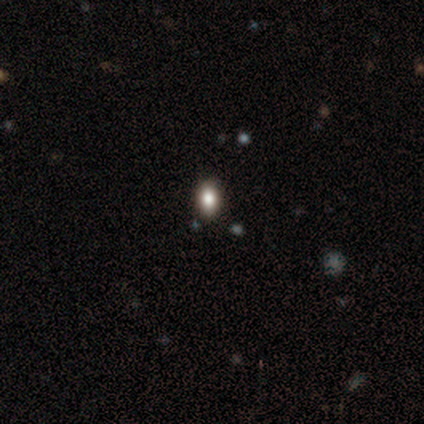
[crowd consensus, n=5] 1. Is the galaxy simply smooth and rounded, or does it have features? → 60% smooth, 40% star or artifact, 0% featured or disk.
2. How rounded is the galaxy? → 100% in between, 0% round, 0% cigar-shaped.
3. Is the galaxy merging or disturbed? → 100% none, 0% minor disturbance, 0% major disturbance, 0% merger.